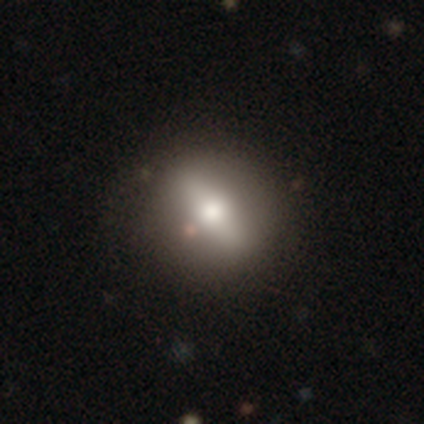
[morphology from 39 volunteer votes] Overall: featured or disk (56%; smooth 31%). Edge-on disk: no (55%; yes 45%). Bar: strong (83%). Spiral arms: no (75%). Bulge size: moderate (58%; large 42%). Merging: none (85%).